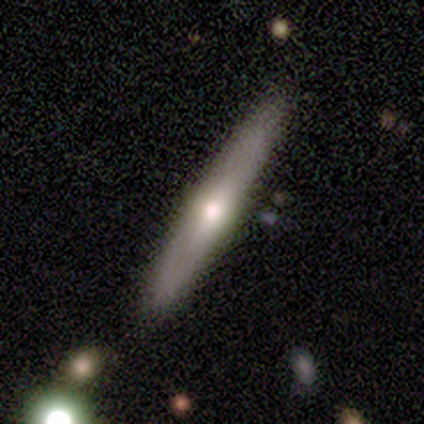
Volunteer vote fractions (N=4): featured or disk 100%, smooth 0%, star or artifact 0%. Down the decision tree: edge-on disk — yes (100%); edge-on bulge — rounded (100%); merging — none (100%).